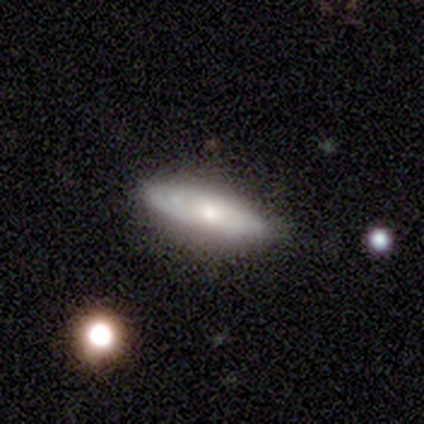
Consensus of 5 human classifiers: Overall: featured or disk (60%; smooth 40%). Edge-on disk: no (100%). Bar: no (100%). Spiral arms: yes (67%; no 33%). Spiral arm count: can't tell (100%). Spiral winding: tight (50%, tied with medium). Bulge size: moderate (67%; small 33%). Merging: none (60%; minor disturbance 40%).